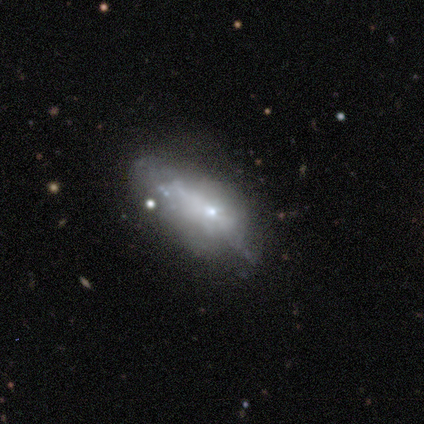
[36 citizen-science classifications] A smooth galaxy with no disk features (50%) that is in between round and cigar-shaped (83%). Merging: none (47%).